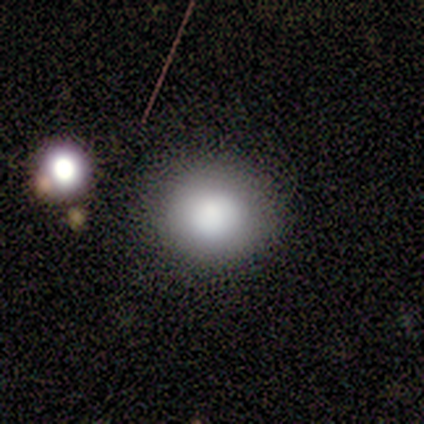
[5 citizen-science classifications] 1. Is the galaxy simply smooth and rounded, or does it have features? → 60% smooth, 20% featured or disk, 20% star or artifact.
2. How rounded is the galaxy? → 100% round, 0% in between, 0% cigar-shaped.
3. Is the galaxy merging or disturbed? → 100% none, 0% minor disturbance, 0% major disturbance, 0% merger.